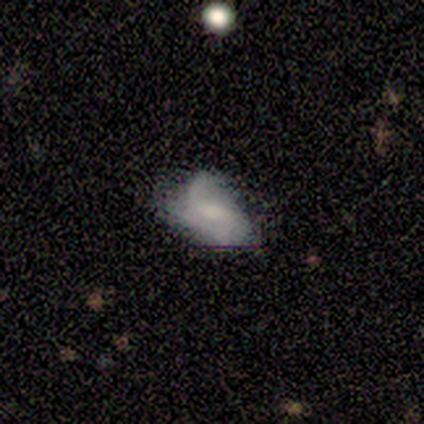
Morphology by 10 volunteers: A featured or disk galaxy (70%) with a weak bar (50%, tied with no), 2 (67%) medium (67%) spiral arms (50%, tied with no) and a small central bulge (50%).

Vote fractions:
- Smooth or featured? featured or disk: 70% / smooth: 30% / star or artifact: 0%
- Edge-on disk? no: 86% / yes: 14%
- Bar? weak: 50% (tied) / no: 50% (tied) / strong: 0%
- Spiral arms? yes: 50% (tied) / no: 50% (tied)
- Spiral winding? medium: 67% / loose: 33% / tight: 0%
- Spiral arm count? 2: 67% / 1: 33% / 3: 0% / 4: 0% / more than 4: 0% / can't tell: 0%
- Bulge size? small: 50% / moderate: 33% / none: 17% / dominant: 0% / large: 0%
- Merging? minor disturbance: 50% / none: 30% / major disturbance: 20% / merger: 0%